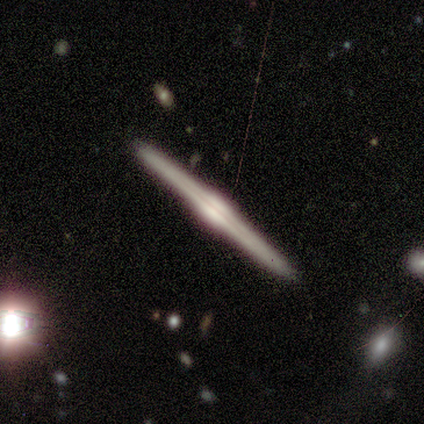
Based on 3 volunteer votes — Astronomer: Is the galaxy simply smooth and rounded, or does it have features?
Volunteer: featured or disk — 100%.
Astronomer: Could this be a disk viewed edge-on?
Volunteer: yes — 100%.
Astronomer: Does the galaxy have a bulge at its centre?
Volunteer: rounded — 100%.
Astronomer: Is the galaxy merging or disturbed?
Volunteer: none — 100%.